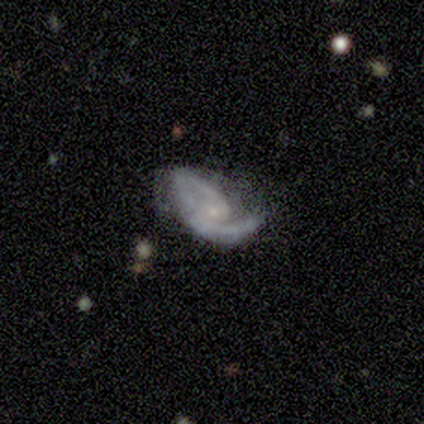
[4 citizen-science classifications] Smooth or featured?
  - featured or disk: 100% *
  - smooth: 0%
  - star or artifact: 0%
Edge-on disk?
  - no: 75% *
  - yes: 25%
Bar?
  - weak: 67% *
  - strong: 33%
  - no: 0%
Spiral arms?
  - yes: 100% *
  - no: 0%
Spiral winding?
  - medium: 100% *
  - tight: 0%
  - loose: 0%
Spiral arm count?
  - 2: 67% *
  - can't tell: 33%
  - 1: 0%
  - 3: 0%
  - 4: 0%
  - more than 4: 0%
Bulge size?
  - none: 67% *
  - small: 33%
  - dominant: 0%
  - large: 0%
  - moderate: 0%
Merging?
  - major disturbance: 50% *
  - none: 25%
  - merger: 25%
  - minor disturbance: 0%